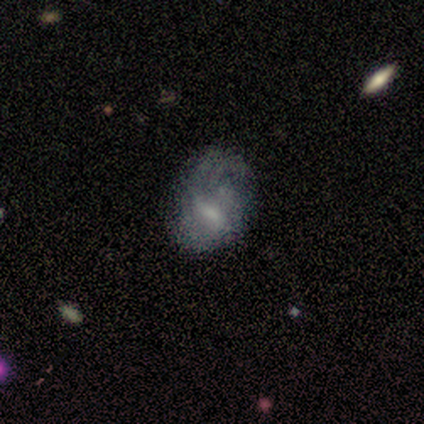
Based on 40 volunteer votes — Smooth or featured? 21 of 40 (52%) said featured or disk. Edge-on disk? 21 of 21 (100%) said no. Bar? 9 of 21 (43%) said weak. Spiral arms? 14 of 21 (67%) said no. Bulge size? 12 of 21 (57%) said small. Merging? 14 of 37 (38%) said minor disturbance.